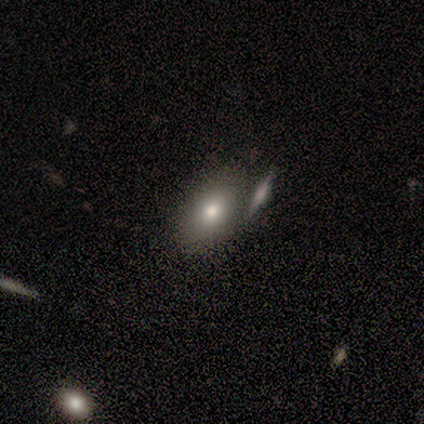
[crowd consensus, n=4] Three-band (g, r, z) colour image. It shows a smooth galaxy with no disk features (75%) that is in between round and cigar-shaped (100%). Merging: none (100%).